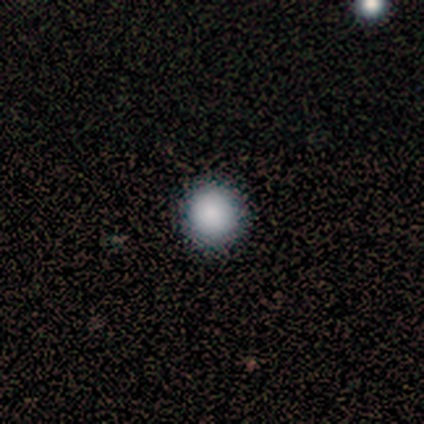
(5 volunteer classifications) Morphology: type=smooth (100%); roundness=round (100%); merging=none (80%).